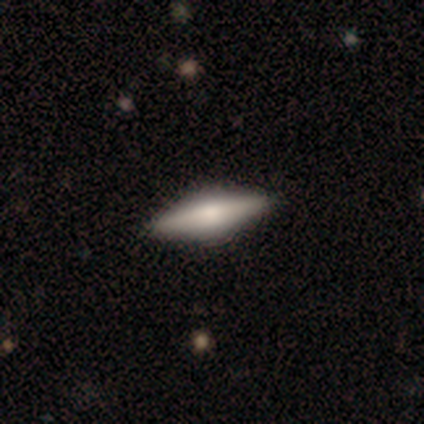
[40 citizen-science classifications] Volunteers were most divided on "smooth or featured": featured or disk: 52%, smooth: 45%, star or artifact: 2%. More confident: edge-on disk — yes (95%); edge-on bulge — rounded (75%); merging — none (67%).